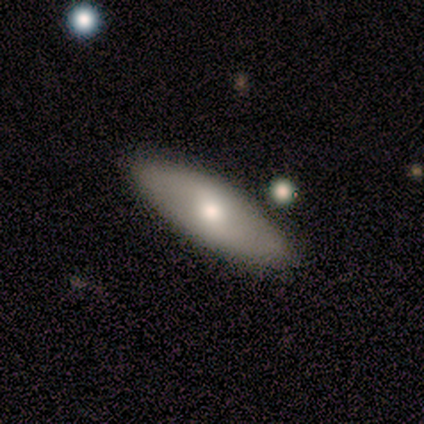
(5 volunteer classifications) smooth-or-featured: smooth: 60% | featured or disk: 40% | star or artifact: 0%
  how-rounded: in between: 100% | round: 0% | cigar-shaped: 0%
  merging: none: 80% | minor disturbance: 20% | major disturbance: 0% | merger: 0%